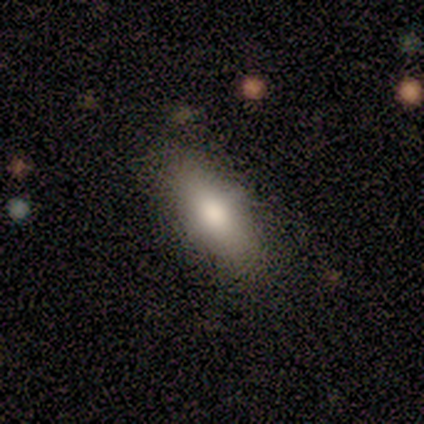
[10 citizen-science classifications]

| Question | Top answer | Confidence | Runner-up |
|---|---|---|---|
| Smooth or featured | smooth | 80% | featured or disk (10%) |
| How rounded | in between | 75% | cigar-shaped (25%) |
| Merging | none | 89% | minor disturbance (11%) |